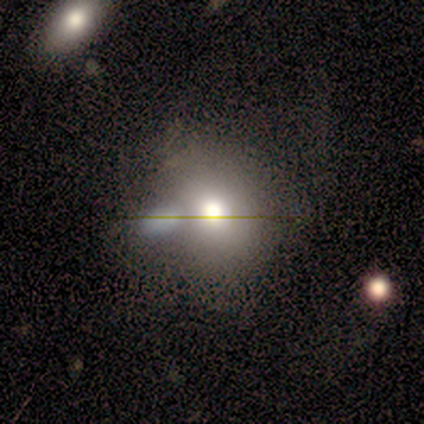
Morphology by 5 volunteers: Volunteers were most divided on "smooth or featured" (2-way tie): smooth: 40%, featured or disk: 40%, star or artifact: 20%; "how rounded" (2-way tie): round: 50%, in between: 50%, cigar-shaped: 0%. More confident: merging — merger (50%).